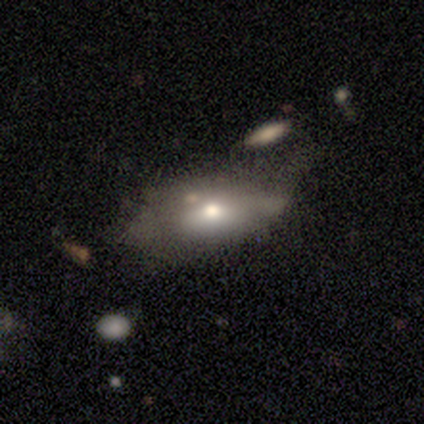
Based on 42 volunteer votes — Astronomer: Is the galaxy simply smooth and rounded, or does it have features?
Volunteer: smooth — 52% (runner-up: featured or disk, 38%).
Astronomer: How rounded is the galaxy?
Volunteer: in between — 82%.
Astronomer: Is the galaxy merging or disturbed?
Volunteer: none — 32%, tied with minor disturbance at 32%.